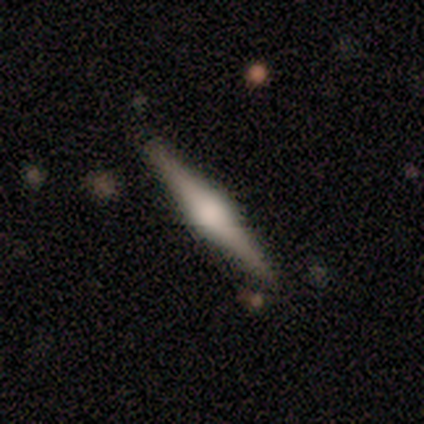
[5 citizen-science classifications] Overall: featured or disk (60%; smooth 20%). Edge-on disk: yes (100%). Edge-on bulge: rounded (100%). Merging: none (75%).